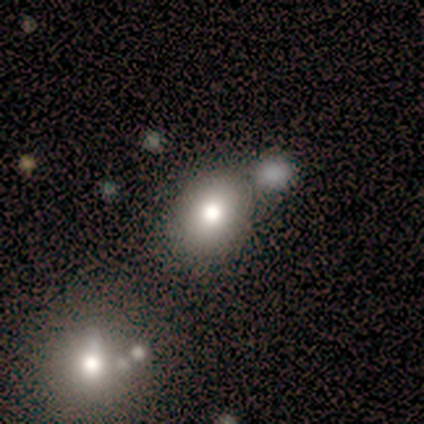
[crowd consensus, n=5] smooth_or_featured: smooth (p=0.80) [alt: star or artifact p=0.20]
how_rounded: round (p=0.75) [alt: in between p=0.25]
merging: none (p=0.50) [alt: major disturbance p=0.25]